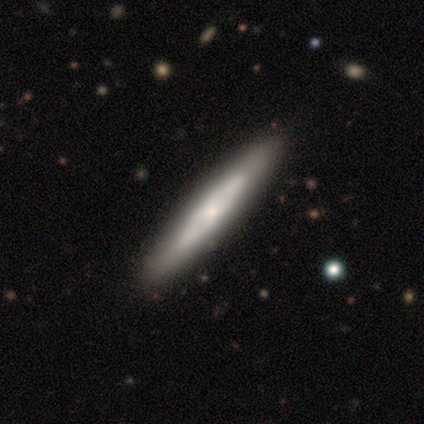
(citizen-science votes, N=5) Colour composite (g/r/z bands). It shows a featured or disk galaxy (80%) viewed edge-on (100%) with no central bulge (75%). Merging: none (80%).